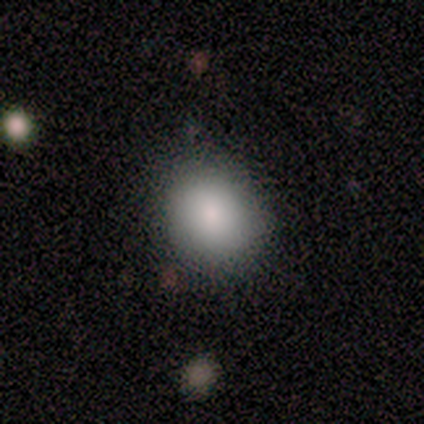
This is clearly a smooth galaxy (80%). How rounded: likely in between (75%). Merging: clearly none (100%).